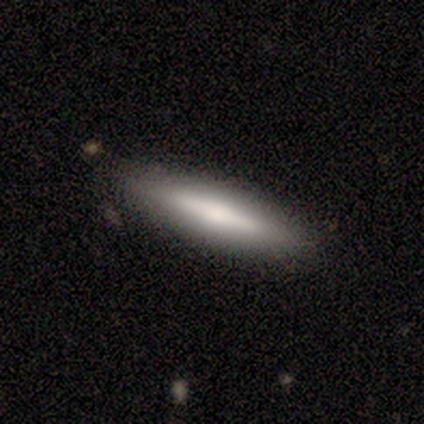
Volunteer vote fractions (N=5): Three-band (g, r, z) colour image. It shows a smooth galaxy with no disk features (80%) that is cigar-shaped (100%). Merging: none (100%).